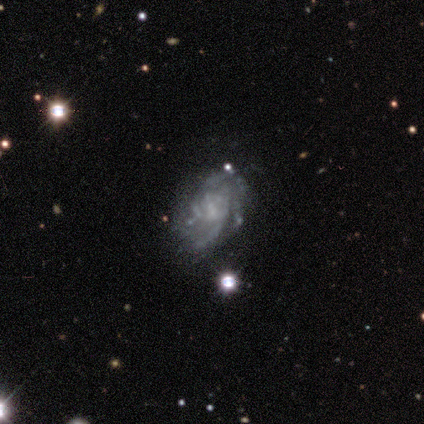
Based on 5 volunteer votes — featured or disk 100%, smooth 0%, star or artifact 0%. Down the decision tree: edge-on disk — no (100%); bar — no (100%); spiral arms — yes (100%); spiral arm count — can't tell (60%); spiral winding — medium (60%); bulge size — small (60%); merging — none (80%).